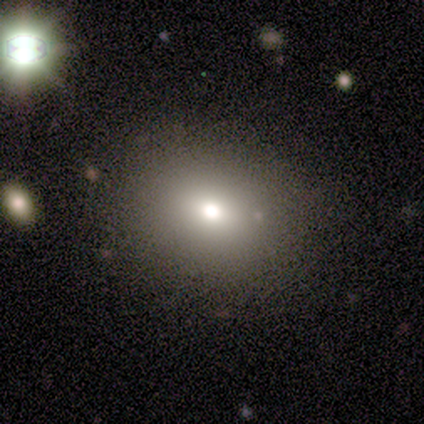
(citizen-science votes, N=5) smooth_or_featured: smooth (p=0.40) [tied with: featured or disk p=0.40]
how_rounded: round (p=1.00)
merging: none (p=1.00)